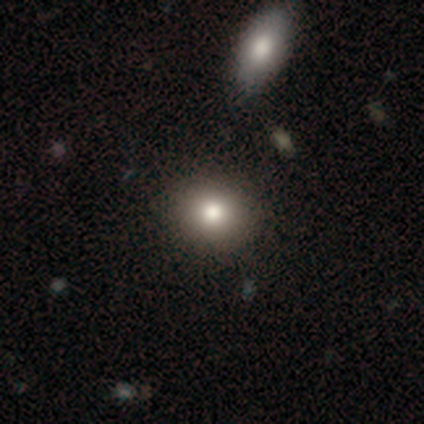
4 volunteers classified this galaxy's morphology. Smooth or featured? smooth (100%)
How rounded? round (75%)
Merging? none (100%)